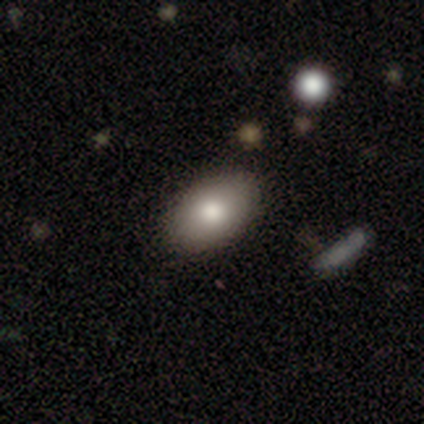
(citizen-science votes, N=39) A smooth galaxy with no disk features (92%) that is in between round and cigar-shaped (92%).

Vote fractions:
- Smooth or featured? smooth: 92% / featured or disk: 5% / star or artifact: 3%
- How rounded? in between: 92% / round: 8% / cigar-shaped: 0%
- Merging? none: 76% / major disturbance: 5% / merger: 5% / minor disturbance: 3%